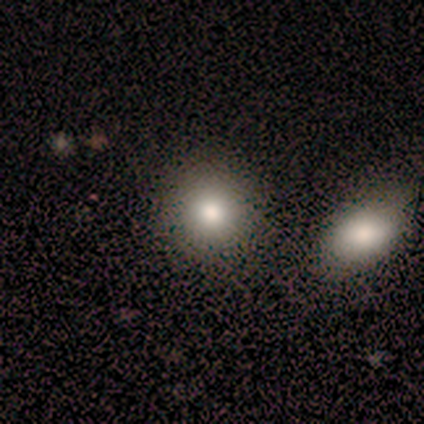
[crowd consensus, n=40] smooth 80%, star or artifact 15%, featured or disk 5%. Down the decision tree: how rounded — round (78%); merging — none (68%).